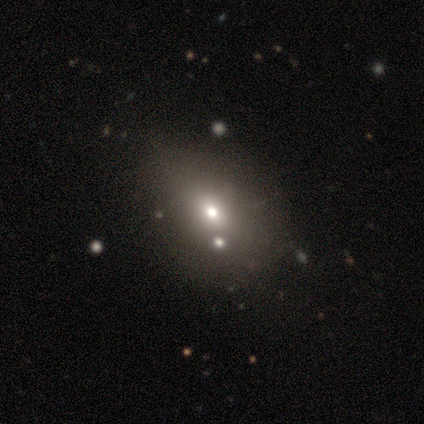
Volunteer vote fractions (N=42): Smooth or featured?
  - smooth: 71% *
  - star or artifact: 21%
  - featured or disk: 7%
How rounded?
  - in between: 80% *
  - round: 17%
  - cigar-shaped: 3%
Merging?
  - none: 42% *
  - minor disturbance: 9%
  - merger: 9%
  - major disturbance: 0%